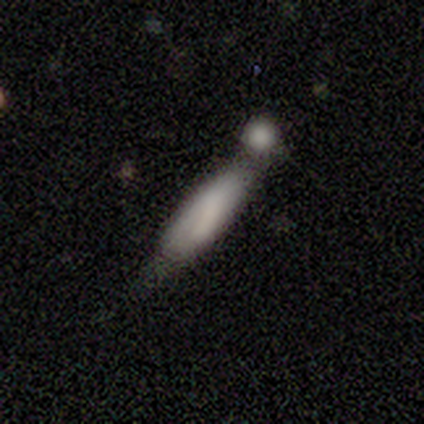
smooth_or_featured: smooth (p=1.00)
how_rounded: cigar-shaped (p=0.60) [alt: in between p=0.40]
merging: minor disturbance (p=0.40) [tied with: merger p=0.40]